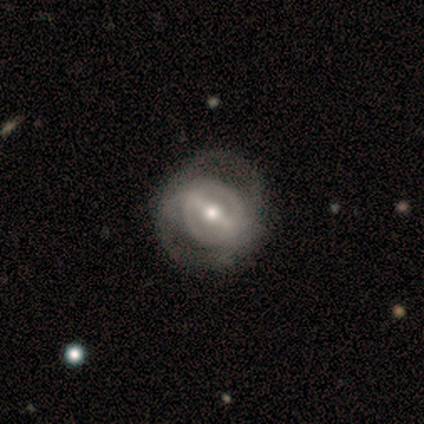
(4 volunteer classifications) Smooth or featured: smooth — 50% (tied with featured or disk — 50%)
How rounded: round — 100%
Merging: none — 50% (tied with major disturbance — 50%)